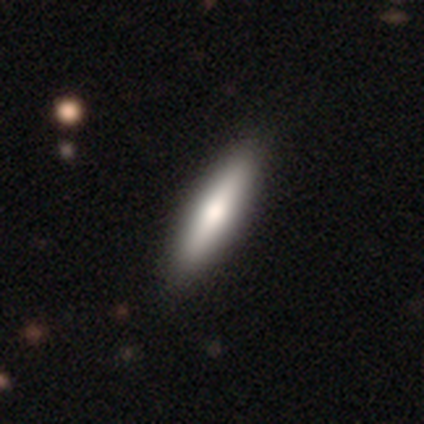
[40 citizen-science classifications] smooth 65%, featured or disk 32%, star or artifact 2%. Down the decision tree: how rounded — cigar-shaped (77%); merging — none (77%).